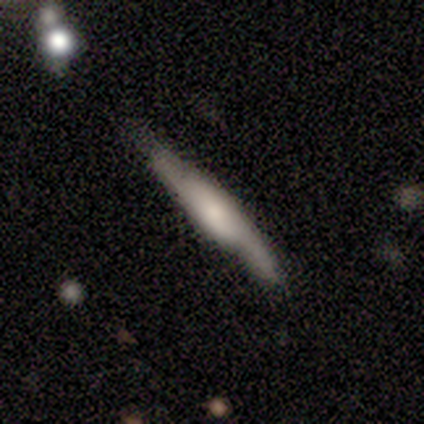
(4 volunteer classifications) Q: Smooth or featured?
A: smooth (50%); tied with: featured or disk (50%)
Q: How rounded?
A: cigar-shaped (100%)
Q: Merging?
A: none (75%); runner-up: minor disturbance (25%)